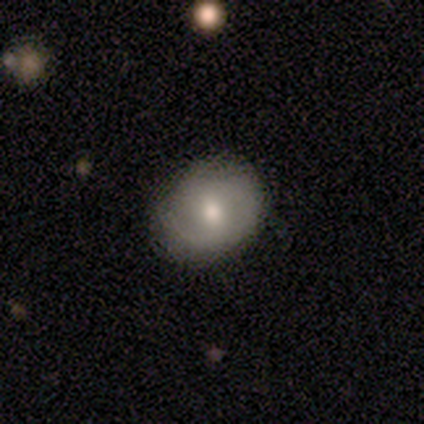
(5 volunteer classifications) Morphology: type=smooth (40%, tied with featured or disk); roundness=round (50%, tied with in between); merging=none (50%, tied with major disturbance).